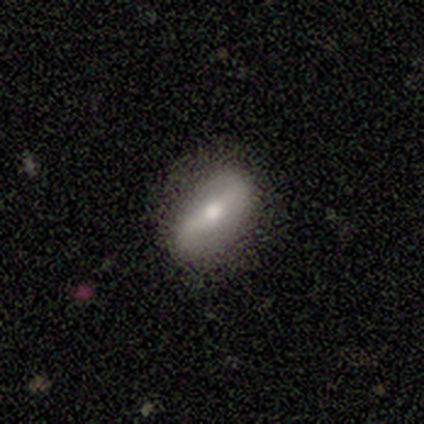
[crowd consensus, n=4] Smooth or featured: featured or disk — 100%
Edge-on disk: no — 100%
Bar: strong — 75% (weak — 25%)
Spiral arms: yes — 75% (no — 25%)
Spiral winding: tight — 33% (tied with medium — 33%; loose — 33%)
Spiral arm count: 2 — 100%
Bulge size: moderate — 75% (small — 25%)
Merging: none — 75% (minor disturbance — 25%)